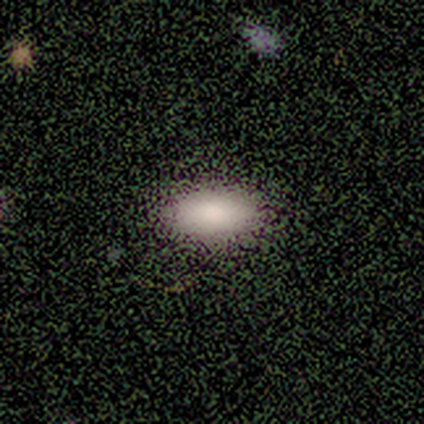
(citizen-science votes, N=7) Smooth or featured: smooth — 86% (star or artifact — 14%)
How rounded: in between — 83% (cigar-shaped — 17%)
Merging: none — 100%